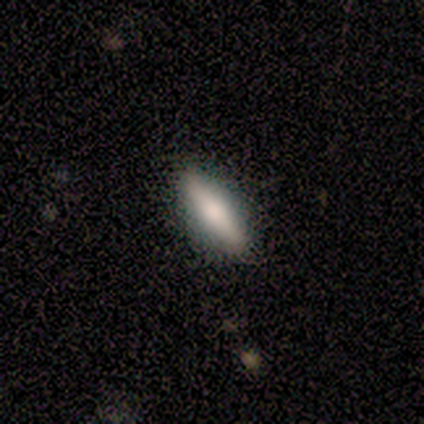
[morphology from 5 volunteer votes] A smooth galaxy with no disk features (80%) that is in between round and cigar-shaped (75%). Merging: none (80%).